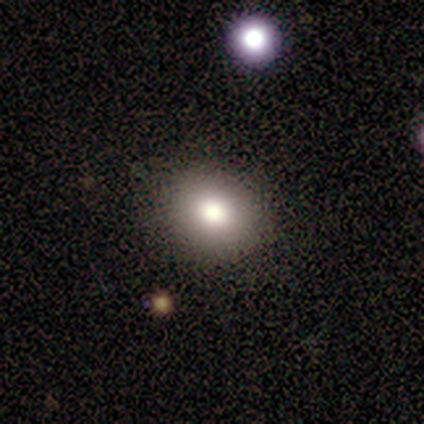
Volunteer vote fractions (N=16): Smooth or featured: smooth — 69% (featured or disk — 19%)
How rounded: round — 64% (in between — 36%)
Merging: none — 100%